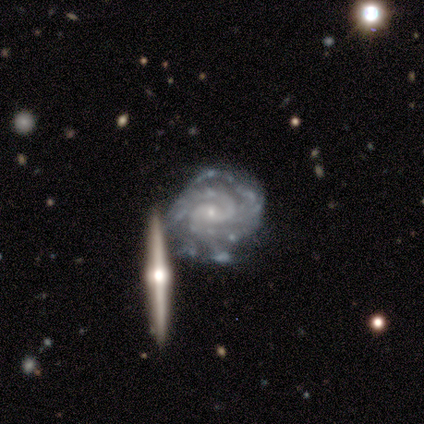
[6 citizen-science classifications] Smooth or featured: featured or disk — 100%
Edge-on disk: no — 100%
Bar: no — 67% (weak — 33%)
Spiral arms: yes — 83% (no — 17%)
Spiral winding: tight — 80% (medium — 20%)
Spiral arm count: 2 — 40% (4 — 20%)
Bulge size: small — 67% (moderate — 33%)
Merging: none — 33% (tied with merger — 33%)